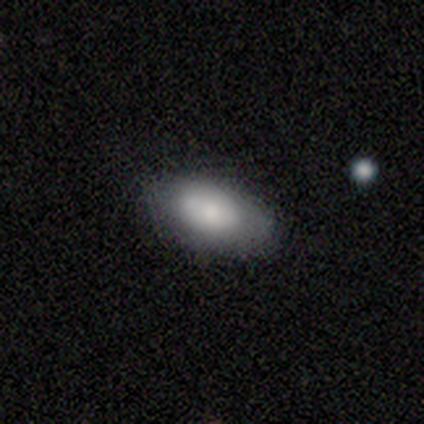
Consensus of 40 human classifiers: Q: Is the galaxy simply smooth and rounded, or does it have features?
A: smooth — 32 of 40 (80%).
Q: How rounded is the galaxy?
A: in between — 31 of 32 (97%).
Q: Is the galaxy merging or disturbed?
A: none — 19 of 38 (50%).